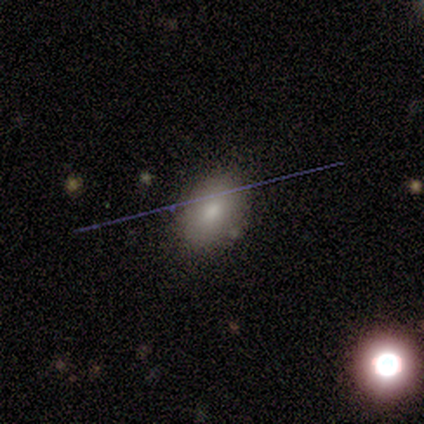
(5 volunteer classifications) smooth 60%, featured or disk 20%, star or artifact 20%. Down the decision tree: how rounded — in between (100%); merging — none (75%).